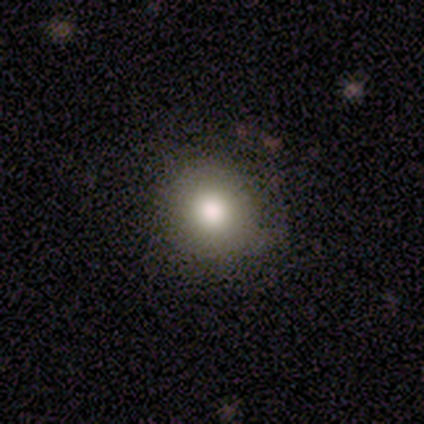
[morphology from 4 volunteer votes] Volunteers were most divided on "merging": none: 75%, minor disturbance: 25%, major disturbance: 0%, merger: 0%. More confident: smooth or featured — smooth (100%); how rounded — round (100%).